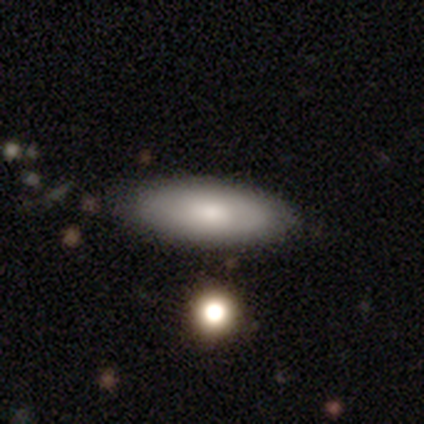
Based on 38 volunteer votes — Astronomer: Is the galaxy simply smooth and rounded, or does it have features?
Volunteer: smooth — 74%.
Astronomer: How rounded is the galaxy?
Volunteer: in between — 86%.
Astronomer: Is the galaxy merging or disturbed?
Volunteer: none — 92%.